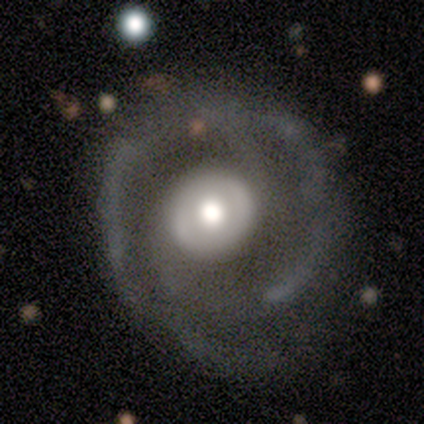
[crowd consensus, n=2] featured or disk 100%, smooth 0%, star or artifact 0%. Down the decision tree: edge-on disk — no (100%); bar — no (100%); spiral arms — yes (50%, tied with no); spiral arm count — 2 (100%); spiral winding — loose (100%); bulge size — large (50%, tied with moderate); merging — minor disturbance (100%).